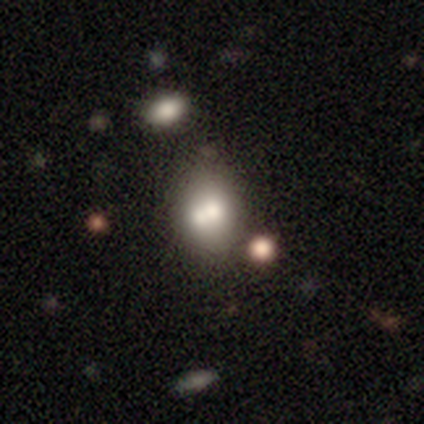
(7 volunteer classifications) Smooth or featured? 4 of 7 (57%) said smooth. How rounded? 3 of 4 (75%) said in between. Merging? 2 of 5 (40%, tied with merger) said none.